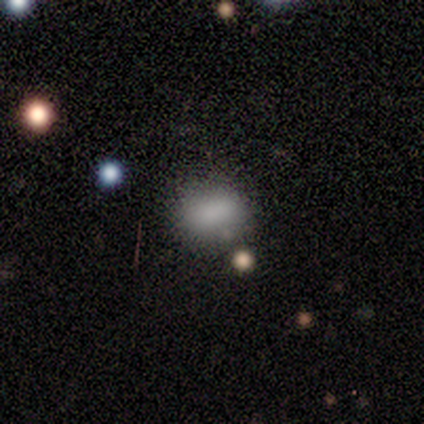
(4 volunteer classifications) Morphology: type=smooth (50%); roundness=in between (100%); merging=none (100%).